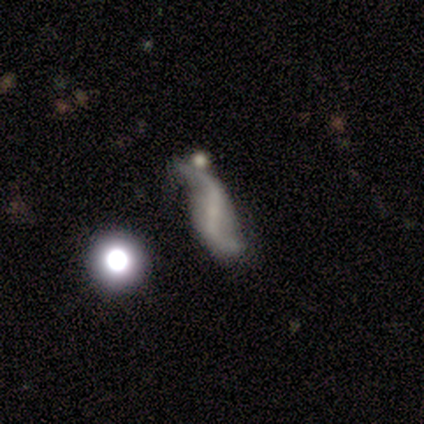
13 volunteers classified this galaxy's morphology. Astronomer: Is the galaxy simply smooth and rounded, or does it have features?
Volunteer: featured or disk — 69%.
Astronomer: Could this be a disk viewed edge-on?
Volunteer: no — 89%.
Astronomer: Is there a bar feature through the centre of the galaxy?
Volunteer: no — 50%.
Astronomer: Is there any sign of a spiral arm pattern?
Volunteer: yes — 88%.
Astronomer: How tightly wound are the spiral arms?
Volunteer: loose — 100%.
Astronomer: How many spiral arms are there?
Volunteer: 2 — 100%.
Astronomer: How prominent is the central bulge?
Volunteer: small — 75%.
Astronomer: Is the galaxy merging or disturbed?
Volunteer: none — 33%, tied with minor disturbance at 33%.